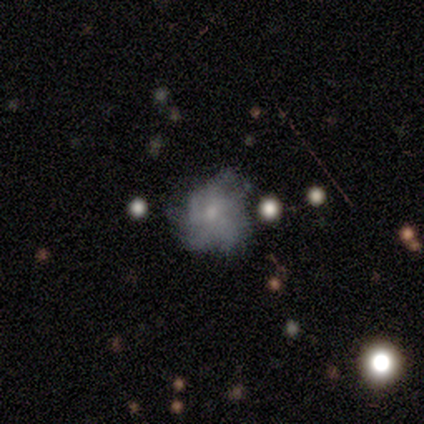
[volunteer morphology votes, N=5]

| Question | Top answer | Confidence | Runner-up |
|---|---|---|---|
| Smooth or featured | featured or disk | 100% | — |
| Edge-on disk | no | 100% | — |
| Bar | no | 100% | — |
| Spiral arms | yes | 100% | — |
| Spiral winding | medium | 80% | tight (20%) |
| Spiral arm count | can't tell | 60% | 4 (20%) |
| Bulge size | small | 60% | moderate (40%) |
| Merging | minor disturbance | 60% | none (40%) |